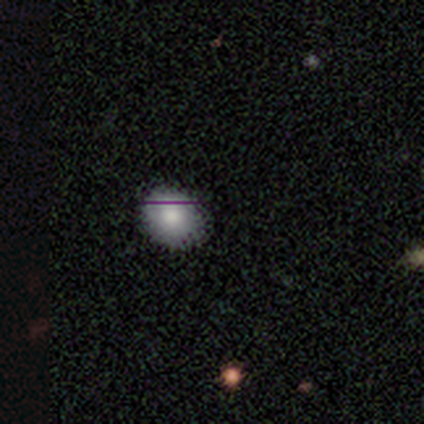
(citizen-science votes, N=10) smooth_or_featured: smooth (p=0.50) [alt: star or artifact p=0.40]
how_rounded: in between (p=0.60) [alt: round p=0.40]
merging: none (p=0.83) [alt: minor disturbance p=0.17]